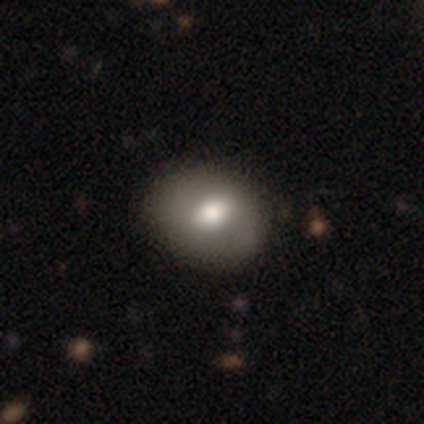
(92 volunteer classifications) This appears to be a smooth galaxy with no disk features (61%) that is in between round and cigar-shaped (54%). Merging: none (84%).